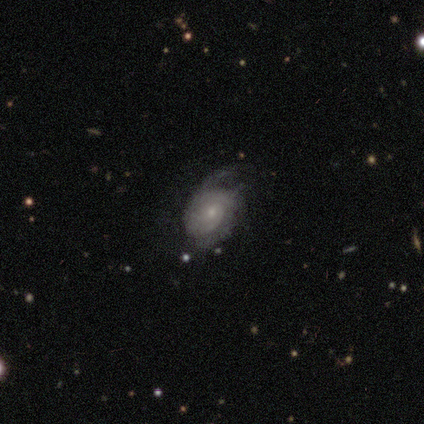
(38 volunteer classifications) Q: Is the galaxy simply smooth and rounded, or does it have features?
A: featured or disk — 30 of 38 (79%).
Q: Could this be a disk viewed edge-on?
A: no — 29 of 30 (97%).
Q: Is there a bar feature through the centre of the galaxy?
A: no — 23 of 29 (79%).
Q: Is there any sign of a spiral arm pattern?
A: yes — 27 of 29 (93%).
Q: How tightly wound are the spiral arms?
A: medium — 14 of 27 (52%).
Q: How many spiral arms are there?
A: can't tell — 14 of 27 (52%).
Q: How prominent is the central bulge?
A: small — 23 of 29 (79%).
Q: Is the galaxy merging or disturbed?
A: none — 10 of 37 (27%, tied with minor disturbance).